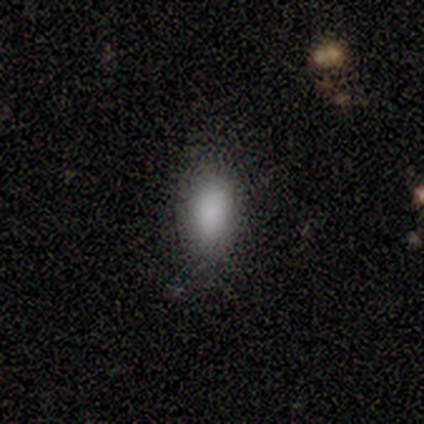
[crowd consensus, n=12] Smooth or featured: smooth — 100%
How rounded: in between — 100%
Merging: none — 75% (minor disturbance — 17%)